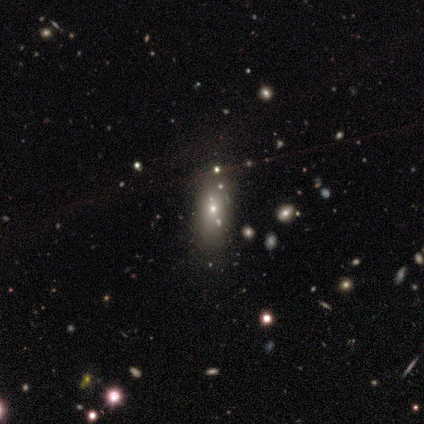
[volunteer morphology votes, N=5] Smooth or featured?
  - featured or disk: 60% *
  - smooth: 20%
  - star or artifact: 20%
Edge-on disk?
  - no: 100% *
  - yes: 0%
Bar?
  - no: 100% *
  - strong: 0%
  - weak: 0%
Spiral arms?
  - no: 100% *
  - yes: 0%
Bulge size?
  - moderate: 67% *
  - small: 33%
  - dominant: 0%
  - large: 0%
  - none: 0%
Merging?
  - none: 100% *
  - minor disturbance: 0%
  - major disturbance: 0%
  - merger: 0%